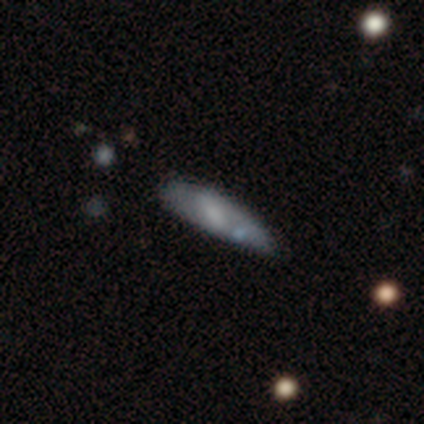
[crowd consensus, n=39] Smooth or featured? 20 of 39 (51%) said smooth. How rounded? 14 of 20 (70%) said cigar-shaped. Merging? 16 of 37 (43%, tied with minor disturbance) said none.